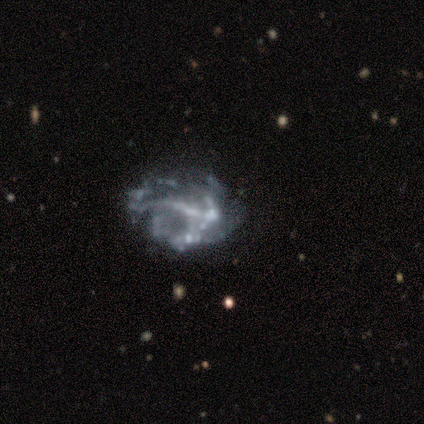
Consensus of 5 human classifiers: Volunteers were most divided on "spiral arms": no: 60%, yes: 40%. More confident: smooth or featured — featured or disk (100%); edge-on disk — no (100%); merging — major disturbance (60%); bar — no (60%); bulge size — none (60%).